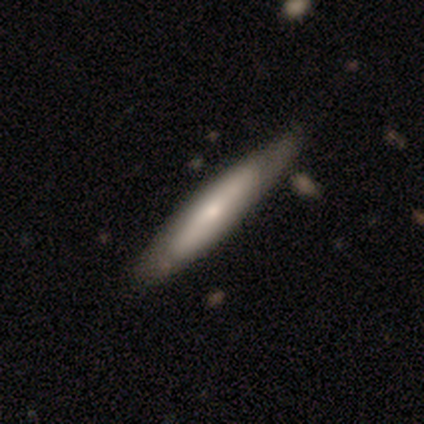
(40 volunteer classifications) This appears to be a smooth galaxy with no disk features (50%) that is cigar-shaped (75%). Merging: none (62%).